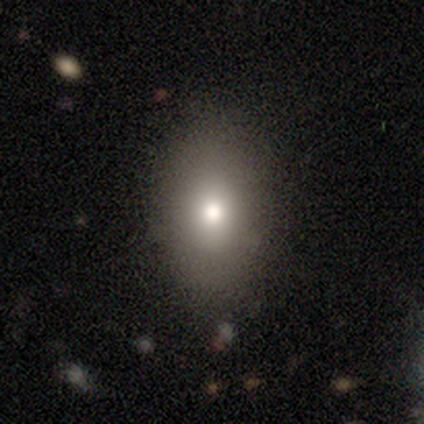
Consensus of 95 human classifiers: Overall: smooth (78%). How rounded: in between (84%). Merging: none (88%).